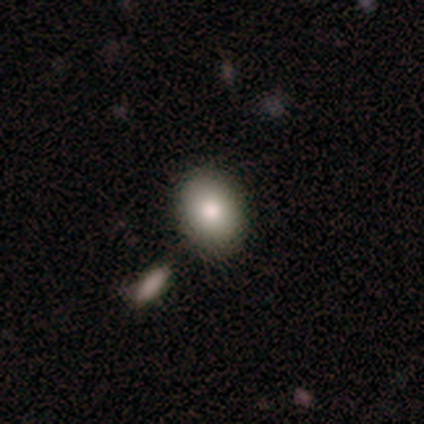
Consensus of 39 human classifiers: Q: Smooth or featured?
A: smooth (85%); runner-up: featured or disk (8%)
Q: How rounded?
A: in between (70%); runner-up: round (30%)
Q: Merging?
A: none (78%); runner-up: minor disturbance (14%)